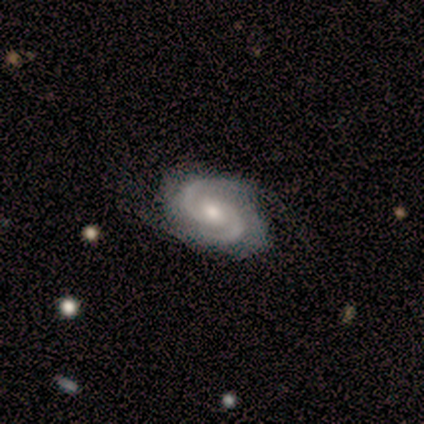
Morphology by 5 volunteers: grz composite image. It shows a featured or disk galaxy (100%) with a weak bar (60%), 2 (100%) tight (75%) spiral arms (80%) and a small central bulge (60%). Merging: none (100%).